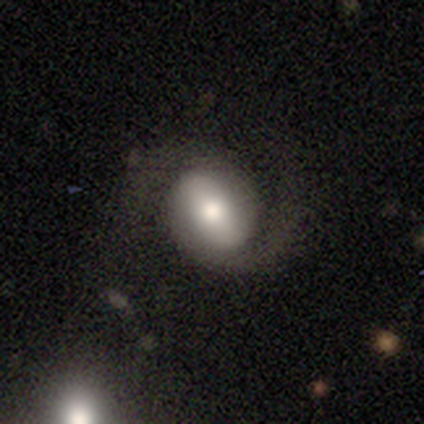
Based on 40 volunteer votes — Volunteers were most divided on "bar": weak: 41%, strong: 37%, no: 22%. More confident: edge-on disk — no (96%); spiral arms — yes (93%); spiral arm count — 2 (88%); bulge size — moderate (70%); smooth or featured — featured or disk (70%); spiral winding — medium (64%); merging — none (62%).